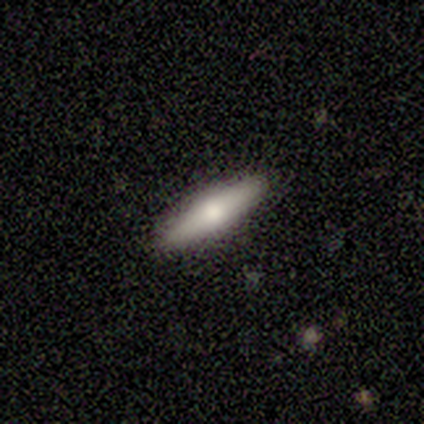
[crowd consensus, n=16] A smooth galaxy with no disk features (62%) that is cigar-shaped (90%). Merging: none (100%).